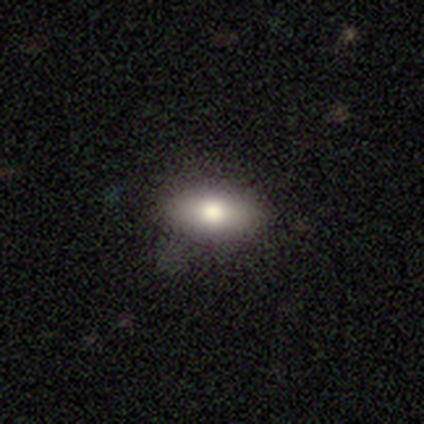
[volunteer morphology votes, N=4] This appears to be a smooth galaxy with no disk features (100%) that is in between round and cigar-shaped (75%). Merging: none (75%).